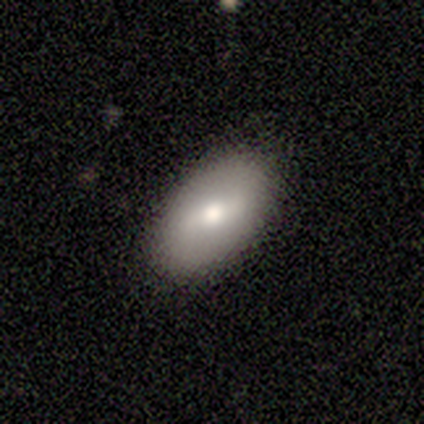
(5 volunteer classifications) Morphology: type=smooth (60%); roundness=in between (100%); merging=none (100%).